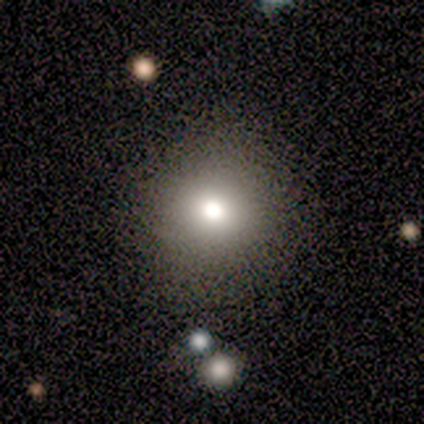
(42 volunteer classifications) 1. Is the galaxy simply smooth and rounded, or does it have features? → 86% smooth, 10% featured or disk, 5% star or artifact.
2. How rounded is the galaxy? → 92% round, 8% in between, 0% cigar-shaped.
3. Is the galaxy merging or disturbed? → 90% none, 8% minor disturbance, 2% merger, 0% major disturbance.